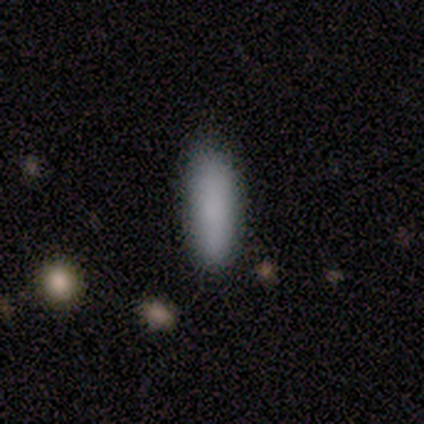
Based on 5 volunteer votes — This is clearly a smooth galaxy (100%). How rounded: likely cigar-shaped (60%). Merging: likely minor disturbance (60%).